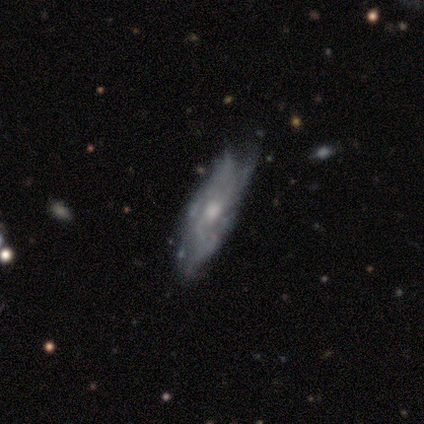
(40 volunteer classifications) Q: Smooth or featured?
A: featured or disk (80%); runner-up: smooth (20%)
Q: Edge-on disk?
A: no (81%); runner-up: yes (19%)
Q: Bar?
A: no (65%); runner-up: weak (35%)
Q: Spiral arms?
A: yes (69%); runner-up: no (31%)
Q: Spiral winding?
A: loose (39%); runner-up: medium (33%)
Q: Spiral arm count?
A: can't tell (50%); runner-up: 3 (22%)
Q: Bulge size?
A: moderate (62%); runner-up: small (27%)
Q: Merging?
A: none (50%); runner-up: minor disturbance (30%)